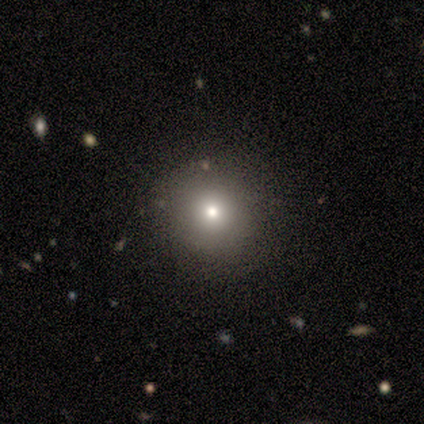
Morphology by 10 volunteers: Smooth or featured? 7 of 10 (70%) said smooth. How rounded? 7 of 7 (100%) said round. Merging? 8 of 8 (100%) said none.